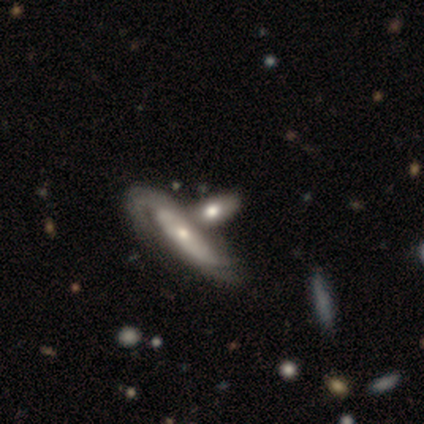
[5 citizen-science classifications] featured or disk 60%, smooth 40%, star or artifact 0%. Down the decision tree: edge-on disk — no (67%); bar — weak (50%, tied with no); spiral arms — yes (100%); spiral arm count — can't tell (100%); spiral winding — tight (50%, tied with medium); bulge size — moderate (50%, tied with small); merging — none (60%).